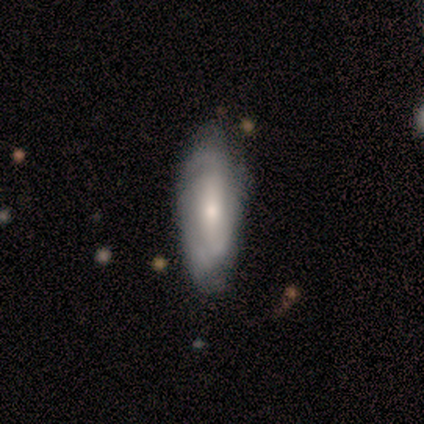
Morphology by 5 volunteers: smooth-or-featured: featured or disk: 80% | smooth: 20% | star or artifact: 0%
  disk-edge-on: no: 100% | yes: 0%
    bar: weak: 50% (tied) | no: 50% (tied) | strong: 0%
    has-spiral-arms: yes: 100% | no: 0%
      spiral-winding: tight: 75% | loose: 25% | medium: 0%
      spiral-arm-count: 2: 50% | 3: 25% | can't tell: 25% | 1: 0% | 4: 0% | more than 4: 0%
    bulge-size: small: 75% | moderate: 25% | dominant: 0% | large: 0% | none: 0%
  merging: none: 40% (tied) | minor disturbance: 40% (tied) | major disturbance: 20% | merger: 0%